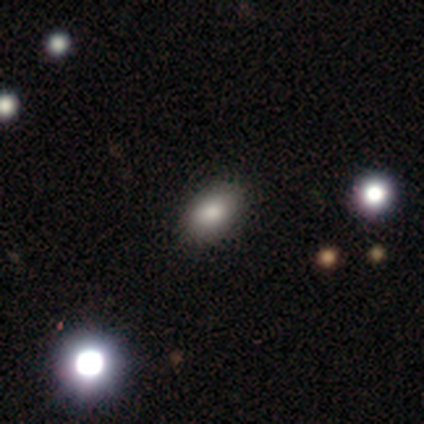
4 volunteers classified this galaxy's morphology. Volunteers were most divided on "smooth or featured" (2-way tie): smooth: 50%, star or artifact: 50%, featured or disk: 0%; "how rounded" (2-way tie): round: 50%, in between: 50%, cigar-shaped: 0%. More confident: merging — none (100%).